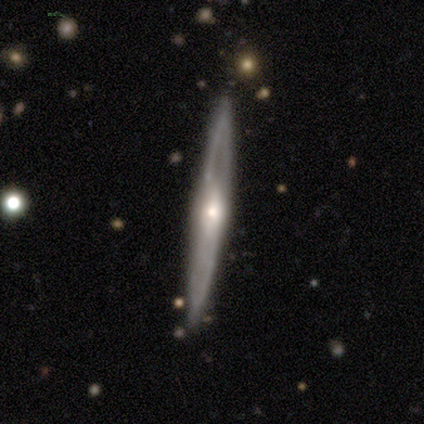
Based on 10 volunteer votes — A featured or disk galaxy (70%) viewed edge-on (86%) with a rounded central bulge (83%). Merging: none (88%).